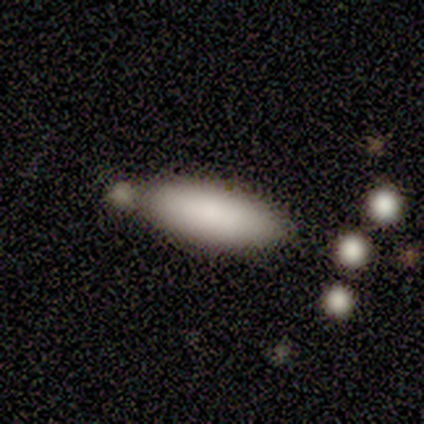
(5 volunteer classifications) Smooth or featured?
  - smooth: 100% *
  - featured or disk: 0%
  - star or artifact: 0%
How rounded?
  - cigar-shaped: 60% *
  - in between: 40%
  - round: 0%
Merging?
  - none: 60% *
  - minor disturbance: 20%
  - major disturbance: 20%
  - merger: 0%